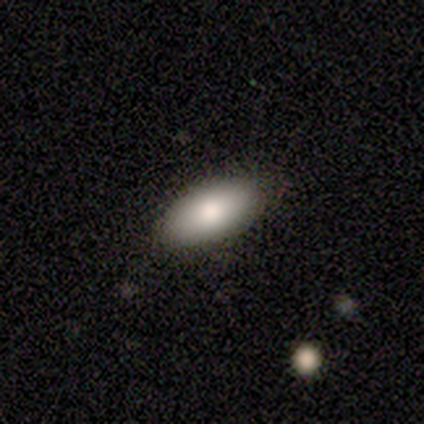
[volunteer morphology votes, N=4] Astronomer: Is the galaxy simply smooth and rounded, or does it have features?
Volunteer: smooth — 100%.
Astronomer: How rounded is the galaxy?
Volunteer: in between — 100%.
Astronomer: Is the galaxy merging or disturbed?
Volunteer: none — 100%.